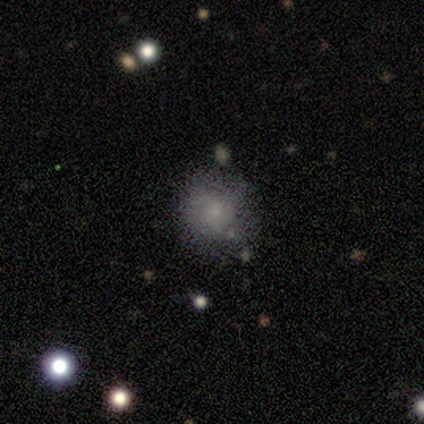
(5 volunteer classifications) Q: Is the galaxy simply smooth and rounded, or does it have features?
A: smooth — 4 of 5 (80%).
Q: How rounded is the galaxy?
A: round — 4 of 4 (100%).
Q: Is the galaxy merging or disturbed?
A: none — 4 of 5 (80%).